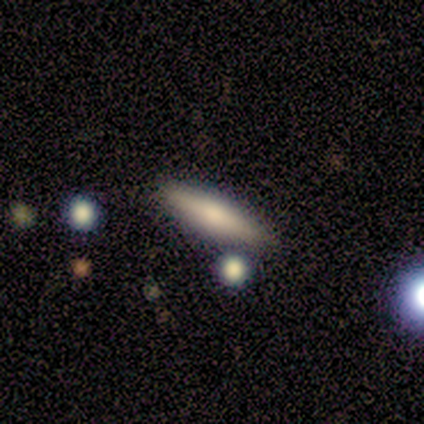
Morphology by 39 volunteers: A smooth galaxy with no disk features (51%) that is cigar-shaped (80%).

Vote fractions:
- Smooth or featured? smooth: 51% / featured or disk: 38% / star or artifact: 10%
- How rounded? cigar-shaped: 80% / in between: 20% / round: 0%
- Merging? none: 86% / minor disturbance: 14% / major disturbance: 0% / merger: 0%